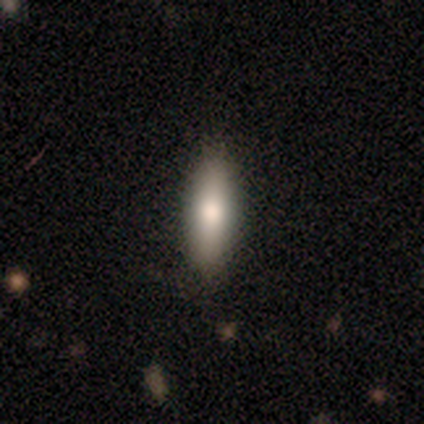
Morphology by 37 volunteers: Smooth or featured? smooth (62%)
How rounded? cigar-shaped (70%)
Merging? none (87%)